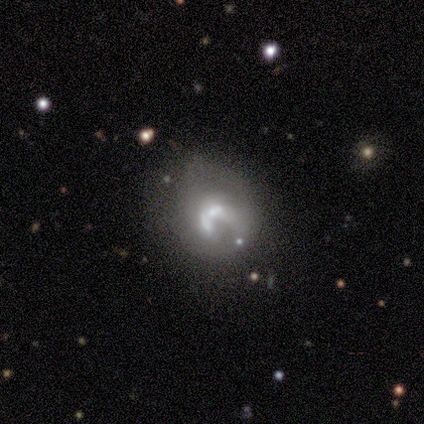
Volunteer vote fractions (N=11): Smooth or featured?
  - featured or disk: 73% *
  - smooth: 27%
  - star or artifact: 0%
Edge-on disk?
  - no: 88% *
  - yes: 12%
Bar?
  - no: 57% *
  - weak: 29%
  - strong: 14%
Spiral arms?
  - no: 71% *
  - yes: 29%
Bulge size?
  - moderate: 43% * (tied)
  - small: 43% * (tied)
  - large: 14%
  - dominant: 0%
  - none: 0%
Merging?
  - none: 27% * (tied)
  - major disturbance: 27% * (tied)
  - merger: 27% * (tied)
  - minor disturbance: 18%